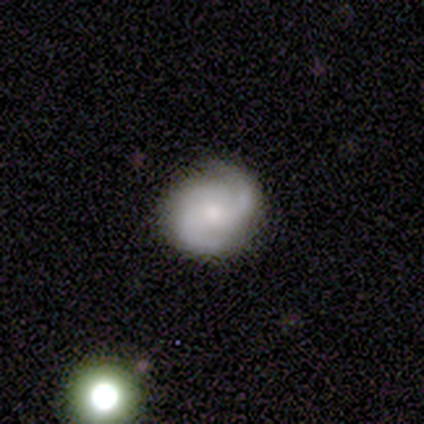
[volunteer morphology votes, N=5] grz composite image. It shows a featured or disk galaxy (100%) with no bar (80%), 2 (80%) tight (40%, tied with medium) spiral arms (100%) and a moderate central bulge (100%). Merging: none (80%).